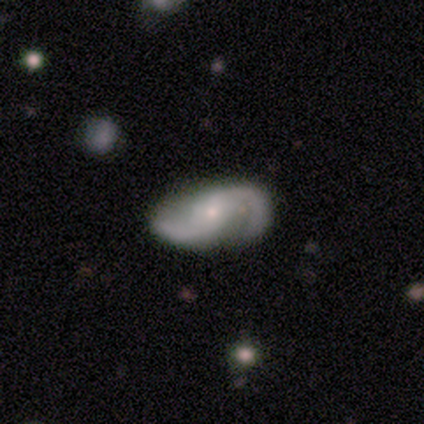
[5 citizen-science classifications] A featured or disk galaxy (80%) with no bar (75%), 2 (100%) medium (75%) spiral arms (100%) and a small central bulge (100%). Merging: none (60%).